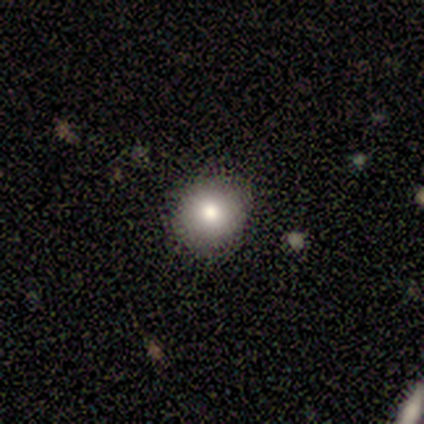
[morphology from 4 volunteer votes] This appears to be a smooth galaxy with no disk features (100%) that is round (100%). Merging: none (100%).